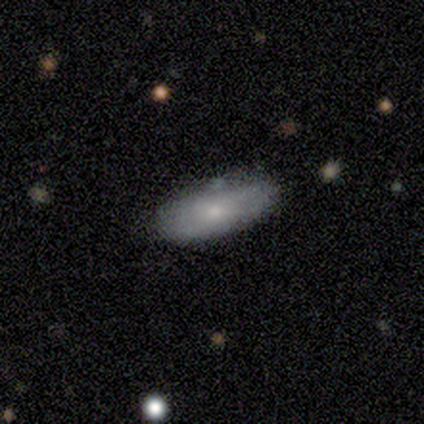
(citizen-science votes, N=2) smooth 50% (tied), featured or disk 50% (tied), star or artifact 0%. Down the decision tree: how rounded — in between (100%); merging — none (50%, tied with major disturbance).